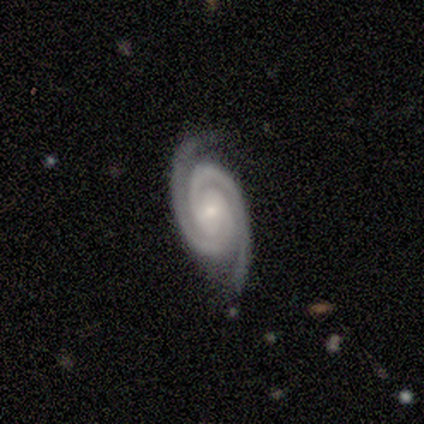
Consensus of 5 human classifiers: Morphology: type=featured or disk (100%); edge-on=no (100%); bar=weak (60%); spiral arms=yes (100%); winding=tight (100%); arm count=2 (100%); bulge=small (100%); merging=none (80%).